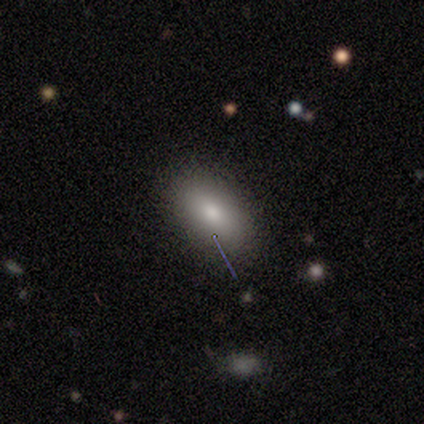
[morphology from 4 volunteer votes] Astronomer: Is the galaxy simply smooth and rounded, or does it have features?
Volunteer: smooth — 100%.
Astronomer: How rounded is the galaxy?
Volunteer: in between — 100%.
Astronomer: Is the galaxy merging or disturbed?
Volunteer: none — 75%.